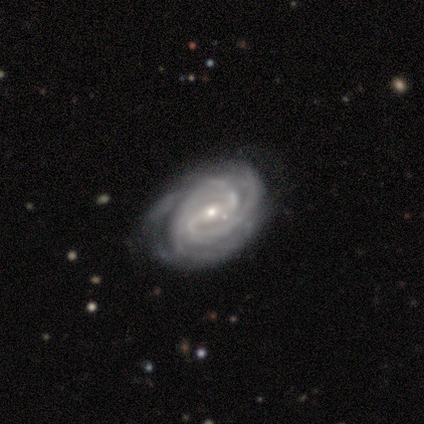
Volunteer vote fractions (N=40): featured or disk 98%, smooth 2%, star or artifact 0%. Down the decision tree: edge-on disk — no (97%); bar — strong (45%); spiral arms — yes (100%); spiral arm count — 2 (53%); spiral winding — tight (82%); bulge size — small (58%); merging — none (42%).